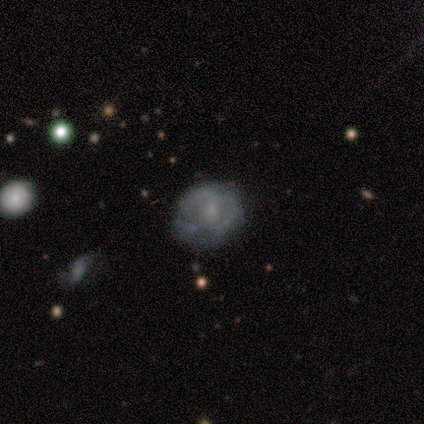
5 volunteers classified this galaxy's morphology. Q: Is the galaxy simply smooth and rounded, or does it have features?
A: smooth — 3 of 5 (60%).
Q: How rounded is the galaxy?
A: round — 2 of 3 (67%).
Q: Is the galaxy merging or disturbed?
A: none — 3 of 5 (60%).